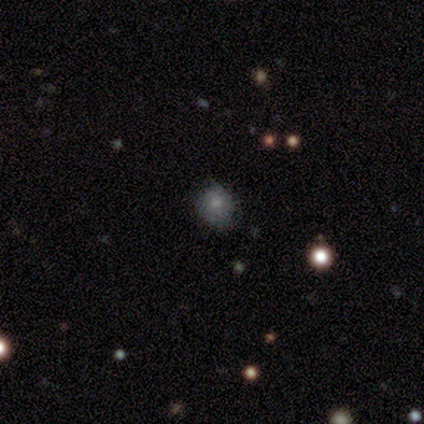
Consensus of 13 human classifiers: Smooth or featured?
  - smooth: 85% *
  - star or artifact: 15%
  - featured or disk: 0%
How rounded?
  - round: 64% *
  - in between: 36%
  - cigar-shaped: 0%
Merging?
  - none: 73% *
  - minor disturbance: 27%
  - major disturbance: 0%
  - merger: 0%